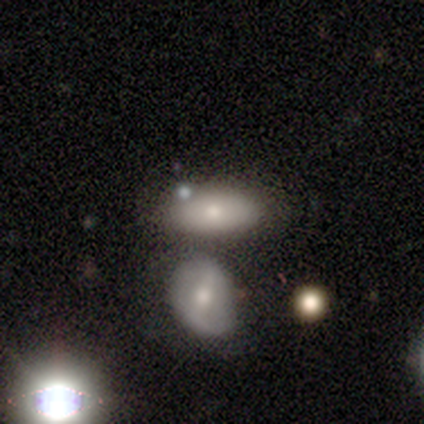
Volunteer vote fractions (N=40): A smooth galaxy with no disk features (62%) that is in between round and cigar-shaped (88%). Merging: none (47%).